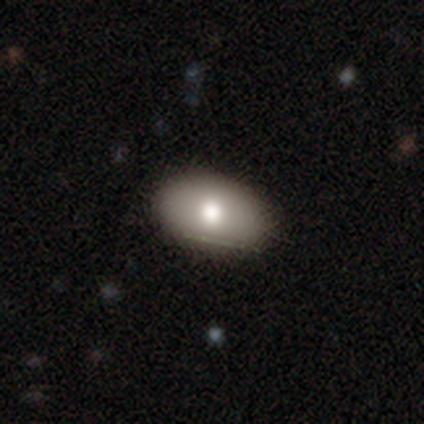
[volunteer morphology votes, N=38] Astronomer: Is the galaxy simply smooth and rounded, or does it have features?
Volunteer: smooth — 76%.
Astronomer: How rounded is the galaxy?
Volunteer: in between — 93%.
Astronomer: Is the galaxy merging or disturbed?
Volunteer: none — 92%.